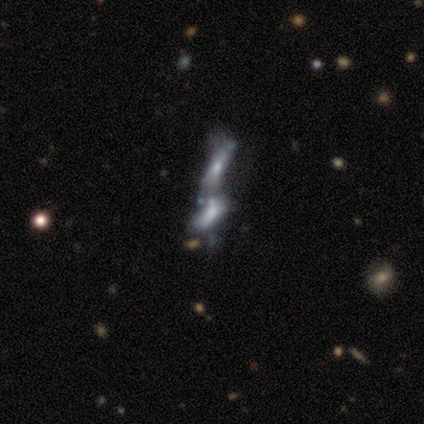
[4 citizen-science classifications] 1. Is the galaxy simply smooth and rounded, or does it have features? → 100% featured or disk, 0% smooth, 0% star or artifact.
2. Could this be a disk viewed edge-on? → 75% no, 25% yes.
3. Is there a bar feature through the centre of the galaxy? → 67% no, 33% strong, 0% weak.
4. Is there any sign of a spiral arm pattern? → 67% no, 33% yes.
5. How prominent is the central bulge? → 67% moderate, 33% small, 0% dominant, 0% large, 0% none.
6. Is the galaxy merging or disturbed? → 100% merger, 0% none, 0% minor disturbance, 0% major disturbance.